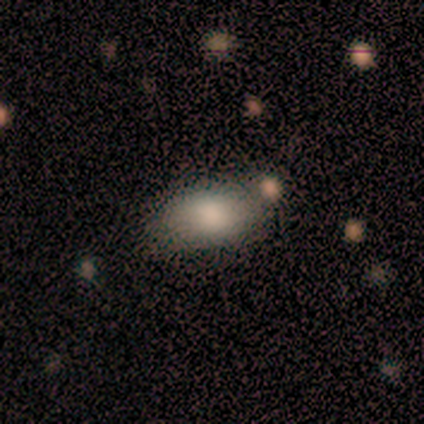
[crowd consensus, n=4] A smooth galaxy with no disk features (100%) that is in between round and cigar-shaped (100%).

Vote fractions:
- Smooth or featured? smooth: 100% / featured or disk: 0% / star or artifact: 0%
- How rounded? in between: 100% / round: 0% / cigar-shaped: 0%
- Merging? none: 50% / minor disturbance: 25% / merger: 25% / major disturbance: 0%